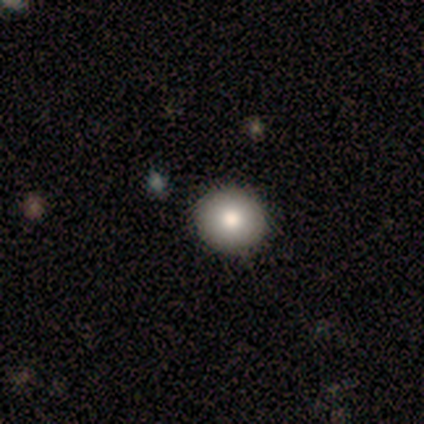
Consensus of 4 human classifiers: Consensus on every question: smooth or featured — smooth (100%); how rounded — round (100%); merging — none (100%).